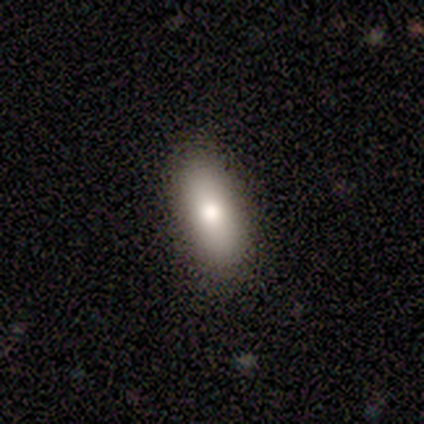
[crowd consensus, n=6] smooth-or-featured: smooth: 67% | featured or disk: 33% | star or artifact: 0%
  how-rounded: in between: 50% (tied) | cigar-shaped: 50% (tied) | round: 0%
  merging: none: 83% | major disturbance: 17% | minor disturbance: 0% | merger: 0%